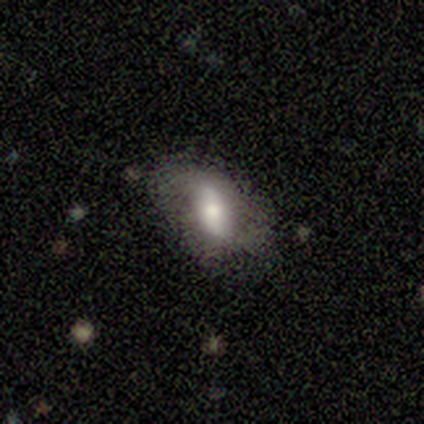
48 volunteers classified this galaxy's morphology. type=featured or disk (58%); edge-on=no (96%); bar=strong (52%); spiral arms=yes (59%); winding=loose (94%); arm count=2 (88%); bulge=moderate (70%); merging=none (72%).